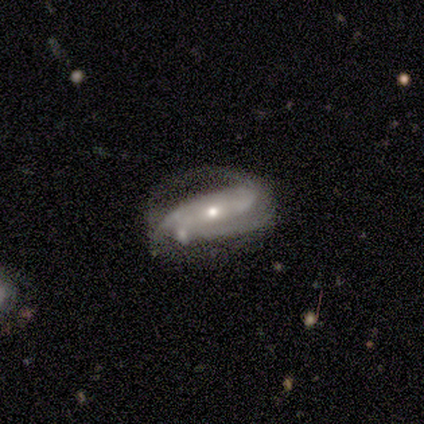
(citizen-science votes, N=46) A featured or disk galaxy (76%) with no bar (67%), 2 (60%) tight (43%) spiral arms (91%) and a small central bulge (61%).

Vote fractions:
- Smooth or featured? featured or disk: 76% / smooth: 22% / star or artifact: 2%
- Edge-on disk? no: 94% / yes: 6%
- Bar? no: 67% / strong: 21% / weak: 12%
- Spiral arms? yes: 91% / no: 9%
- Spiral winding? tight: 43% / medium: 40% / loose: 17%
- Spiral arm count? 2: 60% / can't tell: 20% / 3: 13% / 1: 3% / more than 4: 3% / 4: 0%
- Bulge size? small: 61% / moderate: 39% / dominant: 0% / large: 0% / none: 0%
- Merging? minor disturbance: 42% / none: 22% / major disturbance: 22% / merger: 13%